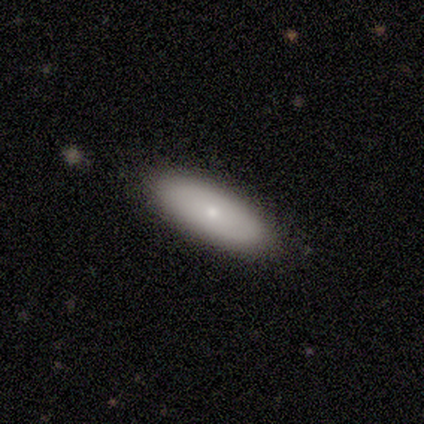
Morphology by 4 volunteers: Smooth or featured: smooth — 75% (featured or disk — 25%)
How rounded: in between — 67% (cigar-shaped — 33%)
Merging: none — 100%